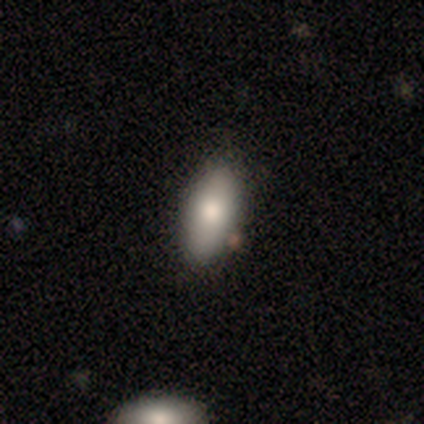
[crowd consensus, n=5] Smooth or featured?
  - smooth: 100% *
  - featured or disk: 0%
  - star or artifact: 0%
How rounded?
  - in between: 100% *
  - round: 0%
  - cigar-shaped: 0%
Merging?
  - none: 100% *
  - minor disturbance: 0%
  - major disturbance: 0%
  - merger: 0%